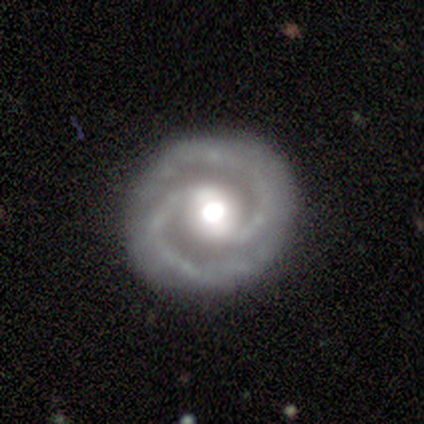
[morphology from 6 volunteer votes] Overall: featured or disk (100%). Edge-on disk: no (100%). Bar: weak (50%; no 33%). Spiral arms: yes (100%). Spiral arm count: 2 (100%). Spiral winding: tight (83%). Bulge size: large (50%; moderate 33%). Merging: none (83%).